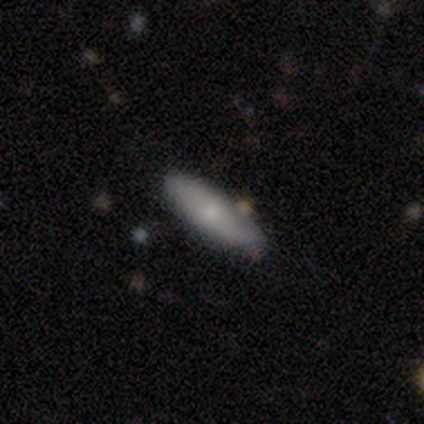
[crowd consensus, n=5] smooth-or-featured: smooth: 100% | featured or disk: 0% | star or artifact: 0%
  how-rounded: in between: 60% | cigar-shaped: 40% | round: 0%
  merging: none: 80% | minor disturbance: 20% | major disturbance: 0% | merger: 0%